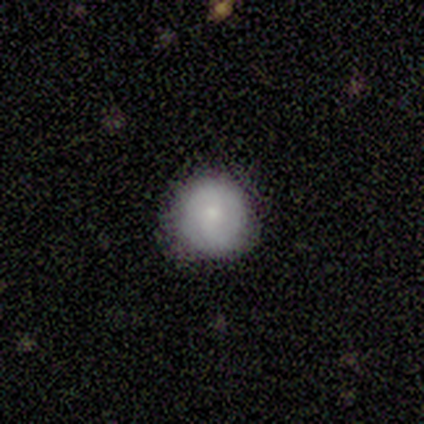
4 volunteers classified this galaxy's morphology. Volunteers were most divided on "merging" (2-way tie): none: 50%, minor disturbance: 50%, major disturbance: 0%, merger: 0%. More confident: how rounded — round (100%); smooth or featured — smooth (75%).